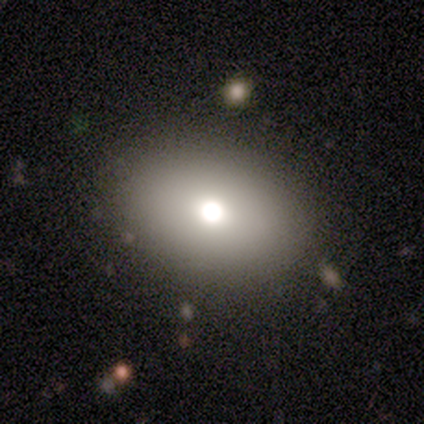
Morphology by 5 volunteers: Overall: smooth (80%). How rounded: round (50%, tied with in between). Merging: none (100%).